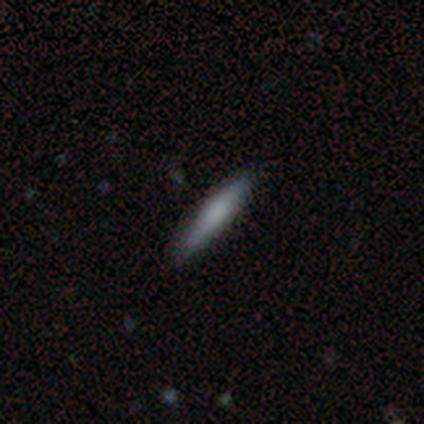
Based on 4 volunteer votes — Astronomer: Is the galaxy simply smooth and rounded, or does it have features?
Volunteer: smooth — 75%.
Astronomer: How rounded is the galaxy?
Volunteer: cigar-shaped — 100%.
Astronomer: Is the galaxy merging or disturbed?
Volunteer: none — 100%.